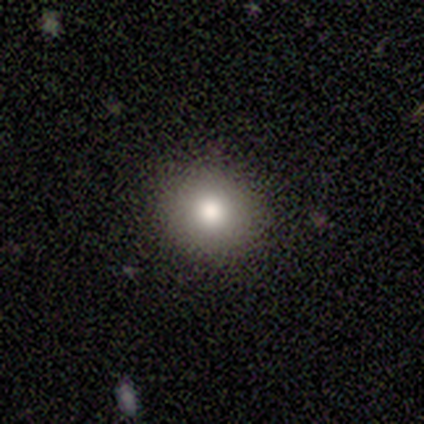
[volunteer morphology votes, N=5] This is clearly a smooth galaxy (100%). How rounded: likely in between (60%). Merging: clearly none (100%).